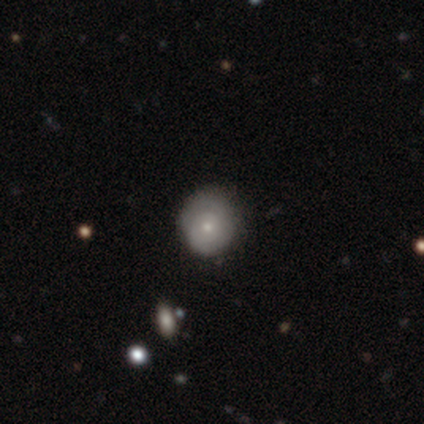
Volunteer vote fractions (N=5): A smooth galaxy with no disk features (60%) that is round (100%).

Vote fractions:
- Smooth or featured? smooth: 60% / featured or disk: 40% / star or artifact: 0%
- How rounded? round: 100% / in between: 0% / cigar-shaped: 0%
- Merging? none: 60% / minor disturbance: 40% / major disturbance: 0% / merger: 0%